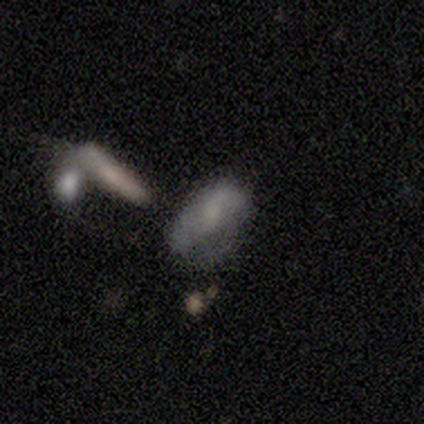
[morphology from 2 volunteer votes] Smooth or featured? smooth (100%)
How rounded? in between (100%)
Merging? minor disturbance (50%, tied with major disturbance)